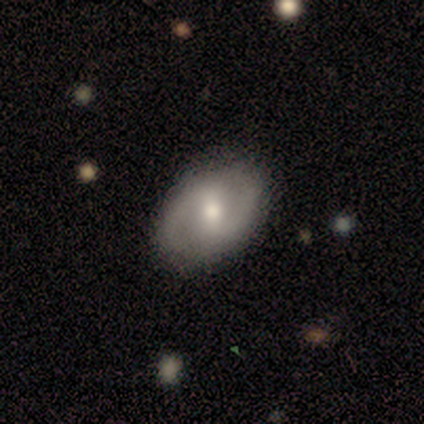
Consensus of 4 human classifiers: Smooth or featured? 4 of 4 (100%) said featured or disk. Edge-on disk? 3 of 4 (75%) said no. Bar? 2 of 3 (67%) said weak. Spiral arms? 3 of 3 (100%) said yes. Spiral winding? 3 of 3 (100%) said medium. Spiral arm count? 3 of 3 (100%) said 2. Bulge size? 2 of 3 (67%) said moderate. Merging? 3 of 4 (75%) said none.